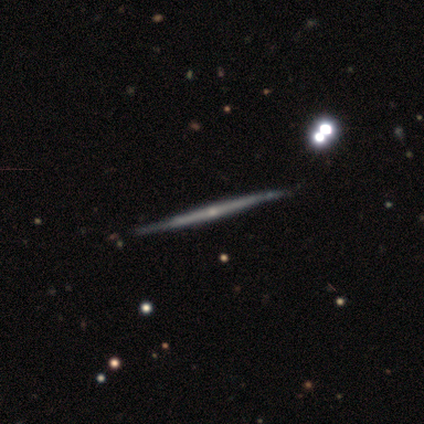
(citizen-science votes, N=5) Smooth or featured: featured or disk — 80% (smooth — 20%)
Edge-on disk: yes — 100%
Edge-on bulge: rounded — 50% (boxy — 25%)
Merging: none — 80% (minor disturbance — 20%)